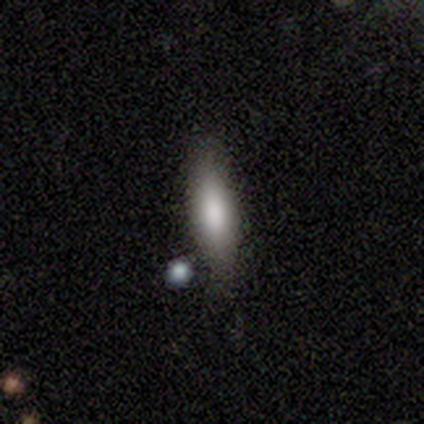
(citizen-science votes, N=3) smooth-or-featured: smooth: 100% | featured or disk: 0% | star or artifact: 0%
  how-rounded: cigar-shaped: 67% | in between: 33% | round: 0%
  merging: none: 100% | minor disturbance: 0% | major disturbance: 0% | merger: 0%